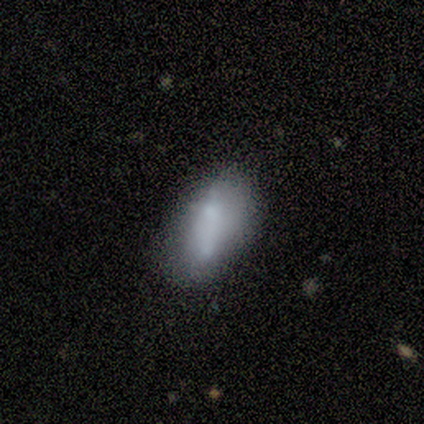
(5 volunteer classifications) A smooth galaxy with no disk features (40%, tied with featured or disk) that is in between round and cigar-shaped (100%).

Vote fractions:
- Smooth or featured? smooth: 40% (tied) / featured or disk: 40% (tied) / star or artifact: 20%
- How rounded? in between: 100% / round: 0% / cigar-shaped: 0%
- Merging? minor disturbance: 50% (tied) / merger: 50% (tied) / none: 0% / major disturbance: 0%